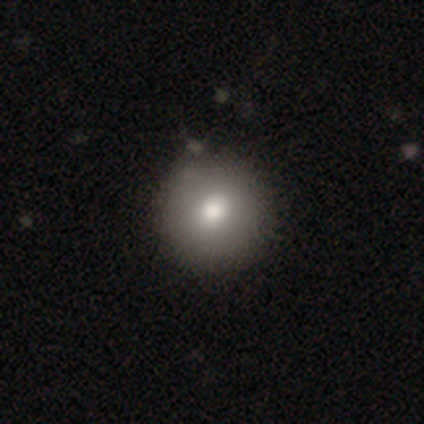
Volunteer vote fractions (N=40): This appears to be a smooth galaxy with no disk features (90%) that is round (94%). Merging: none (59%).